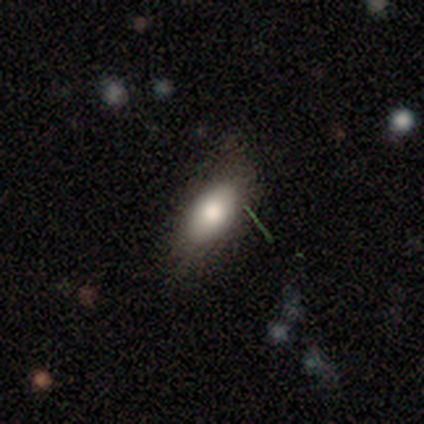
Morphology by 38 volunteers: A smooth galaxy with no disk features (89%) that is in between round and cigar-shaped (82%). Merging: none (67%).